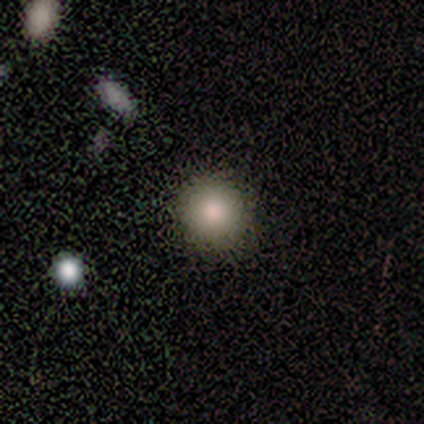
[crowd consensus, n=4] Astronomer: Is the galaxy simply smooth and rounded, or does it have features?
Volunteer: smooth — 75%.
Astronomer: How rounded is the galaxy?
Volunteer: round — 100%.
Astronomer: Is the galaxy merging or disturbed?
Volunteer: none — 100%.